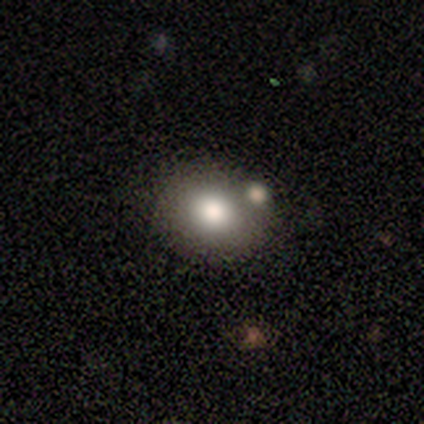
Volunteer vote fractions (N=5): A smooth galaxy with no disk features (40%, tied with featured or disk) that is in between round and cigar-shaped (100%).

Vote fractions:
- Smooth or featured? smooth: 40% (tied) / featured or disk: 40% (tied) / star or artifact: 20%
- How rounded? in between: 100% / round: 0% / cigar-shaped: 0%
- Merging? none: 50% / minor disturbance: 25% / merger: 25% / major disturbance: 0%